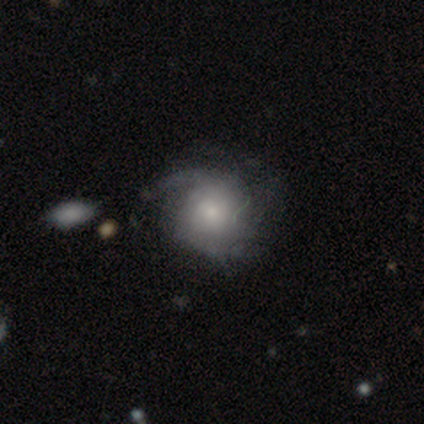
A smooth galaxy with no disk features (40%, tied with featured or disk) that is round (50%, tied with in between). Merging: major disturbance (50%).